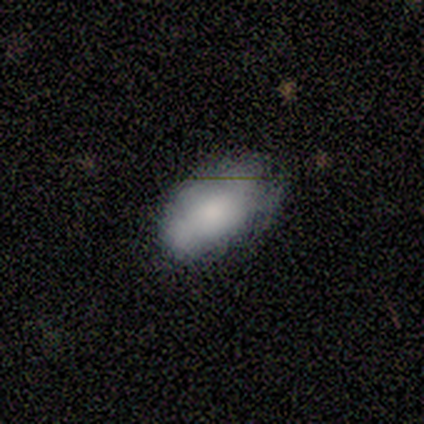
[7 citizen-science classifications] Smooth or featured?
  - smooth: 86% *
  - star or artifact: 14%
  - featured or disk: 0%
How rounded?
  - in between: 83% *
  - round: 17%
  - cigar-shaped: 0%
Merging?
  - none: 83% *
  - minor disturbance: 17%
  - major disturbance: 0%
  - merger: 0%